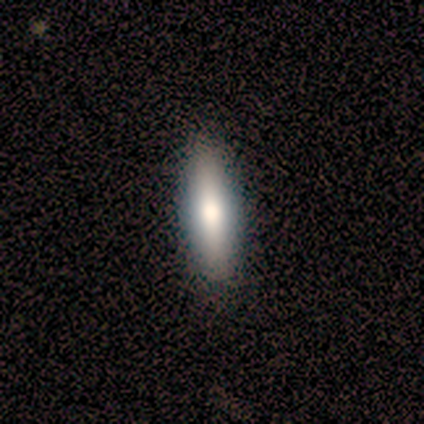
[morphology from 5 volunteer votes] smooth 100%, featured or disk 0%, star or artifact 0%. Down the decision tree: how rounded — cigar-shaped (100%); merging — none (60%).